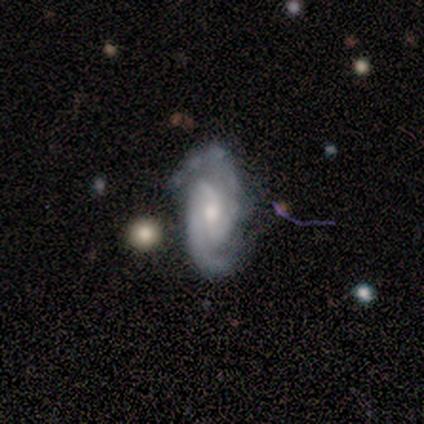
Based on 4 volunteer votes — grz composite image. It shows a featured or disk galaxy (100%) with no bar (50%), 2 (75%) tight (75%) spiral arms (100%) and a moderate central bulge (50%, tied with small). Merging: none (100%).